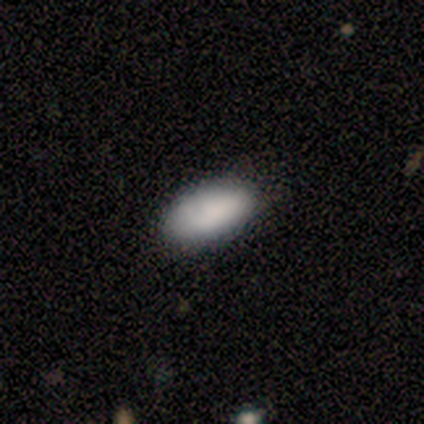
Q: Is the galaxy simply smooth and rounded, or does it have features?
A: smooth — 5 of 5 (100%).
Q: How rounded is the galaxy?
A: in between — 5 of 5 (100%).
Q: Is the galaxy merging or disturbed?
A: none — 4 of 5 (80%).